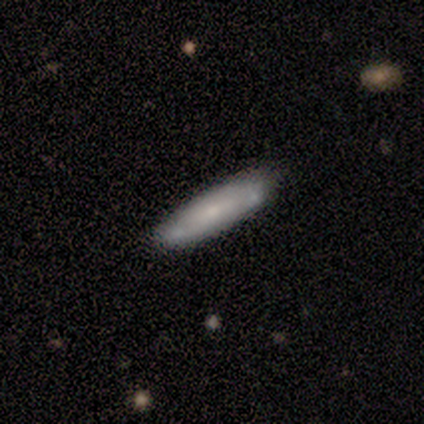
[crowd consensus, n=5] Smooth or featured? 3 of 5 (60%) said smooth. How rounded? 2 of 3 (67%) said cigar-shaped. Merging? 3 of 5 (60%) said minor disturbance.